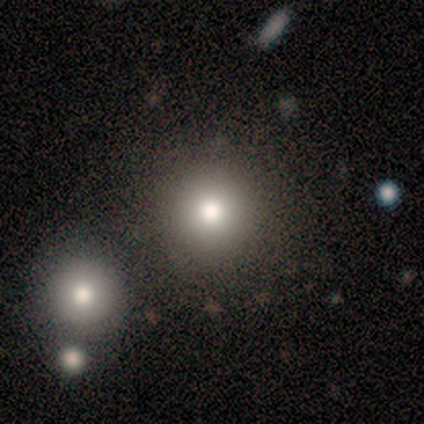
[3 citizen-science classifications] Morphology: type=smooth (100%); roundness=round (67%); merging=merger (67%).